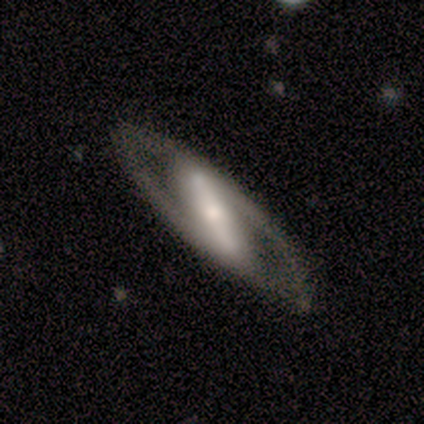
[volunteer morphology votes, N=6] Volunteers were most divided on "bulge size": small: 50%, large: 25%, moderate: 25%, dominant: 0%, none: 0%. More confident: smooth or featured — featured or disk (100%); bar — strong (100%); spiral arms — yes (100%); spiral winding — medium (75%); spiral arm count — 2 (75%); edge-on disk — no (67%); merging — none (67%).